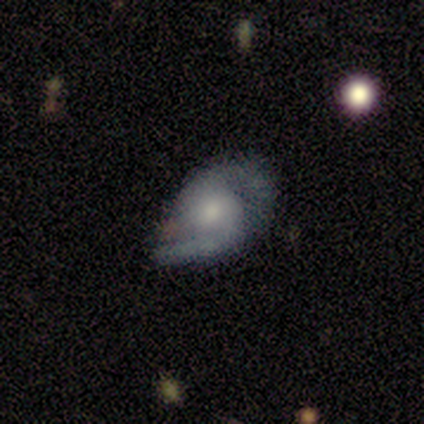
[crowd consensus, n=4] featured or disk 100%, smooth 0%, star or artifact 0%. Down the decision tree: edge-on disk — no (100%); bar — weak (50%); spiral arms — yes (100%); spiral arm count — 2 (75%); spiral winding — medium (50%, tied with loose); bulge size — moderate (75%); merging — none (50%, tied with minor disturbance).